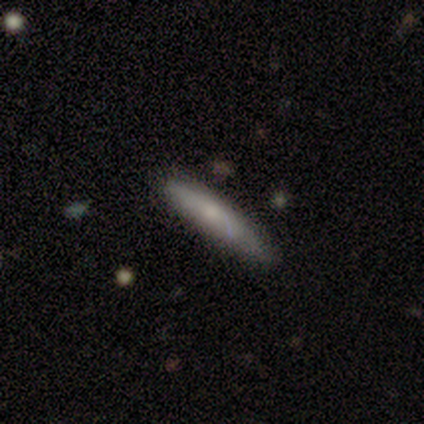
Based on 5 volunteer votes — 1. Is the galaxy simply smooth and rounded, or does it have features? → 60% featured or disk, 40% smooth, 0% star or artifact.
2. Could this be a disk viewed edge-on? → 67% yes, 33% no.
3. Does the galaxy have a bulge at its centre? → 100% none, 0% boxy, 0% rounded.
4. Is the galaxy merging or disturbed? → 60% none, 40% minor disturbance, 0% major disturbance, 0% merger.